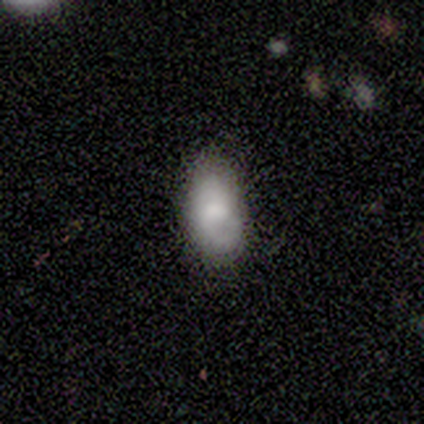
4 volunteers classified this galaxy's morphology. type=smooth (50%, tied with featured or disk); roundness=in between (100%); merging=none (75%).